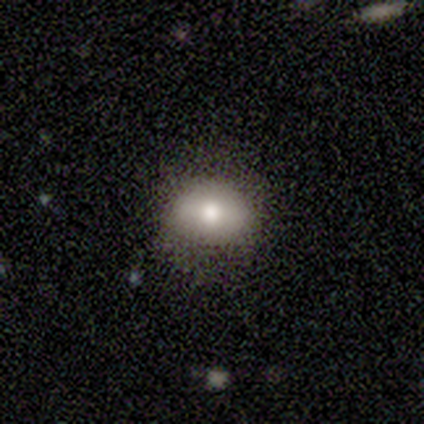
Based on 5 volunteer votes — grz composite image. It shows a smooth galaxy with no disk features (100%) that is in between round and cigar-shaped (60%). Merging: none (80%).